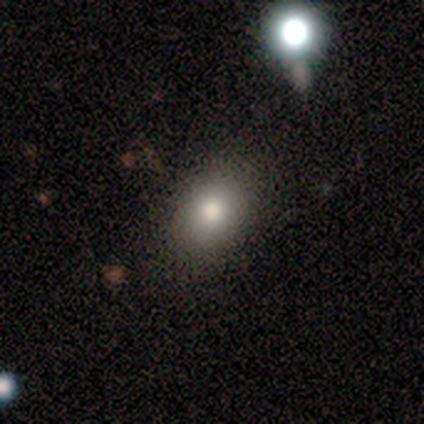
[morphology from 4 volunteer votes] Volunteers were most divided on "how rounded": in between: 67%, round: 33%, cigar-shaped: 0%. More confident: smooth or featured — smooth (75%); merging — none (75%).